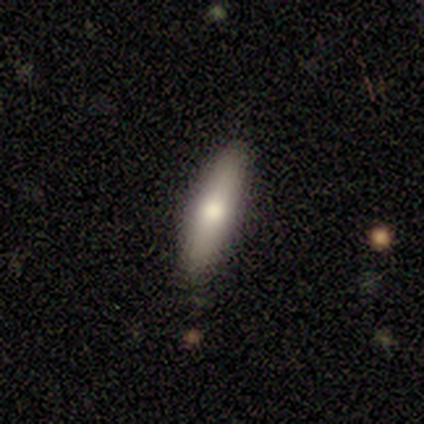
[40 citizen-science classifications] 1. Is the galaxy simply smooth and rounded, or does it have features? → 72% smooth, 22% featured or disk, 5% star or artifact.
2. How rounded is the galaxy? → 66% cigar-shaped, 34% in between, 0% round.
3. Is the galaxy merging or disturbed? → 82% none, 16% minor disturbance, 3% merger, 0% major disturbance.